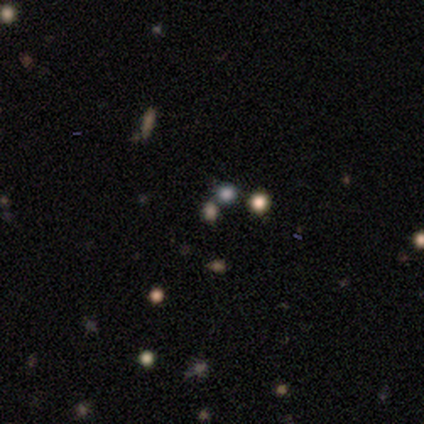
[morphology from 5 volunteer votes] smooth-or-featured: star or artifact: 60% | smooth: 40% | featured or disk: 0%